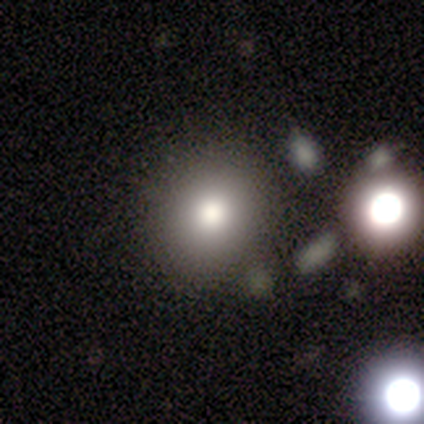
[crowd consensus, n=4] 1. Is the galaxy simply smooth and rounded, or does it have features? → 50% smooth, 25% featured or disk, 25% star or artifact.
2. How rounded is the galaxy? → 50% round (tied), 50% in between (tied), 0% cigar-shaped.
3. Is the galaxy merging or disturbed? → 100% none, 0% minor disturbance, 0% major disturbance, 0% merger.